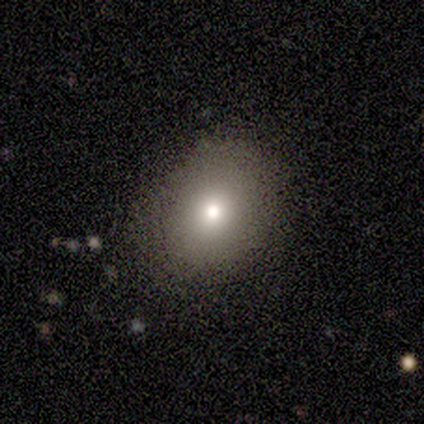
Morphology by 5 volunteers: Smooth or featured? smooth (80%)
How rounded? round (75%)
Merging? none (100%)